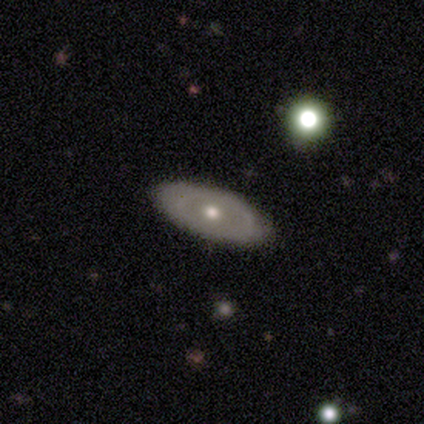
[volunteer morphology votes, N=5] A featured or disk galaxy (80%) with no bar (100%), no spiral arms (100%) and a moderate central bulge (67%). Merging: none (80%).